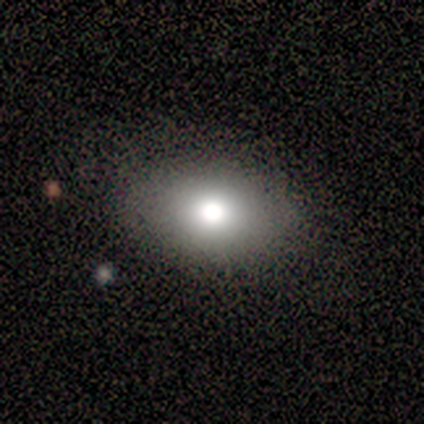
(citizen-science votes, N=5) Smooth or featured? 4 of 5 (80%) said smooth. How rounded? 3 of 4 (75%) said in between. Merging? 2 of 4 (50%) said none.